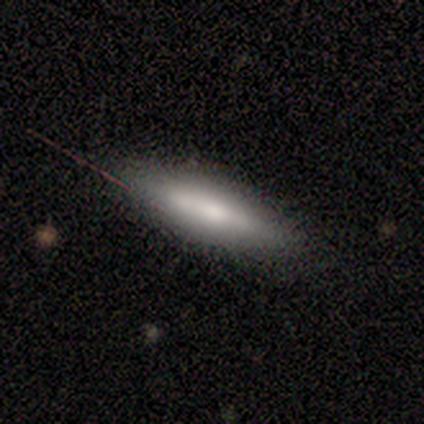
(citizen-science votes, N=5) Overall: featured or disk (60%; smooth 40%). Edge-on disk: yes (100%). Edge-on bulge: boxy (33%, tied with none and rounded). Merging: none (80%).